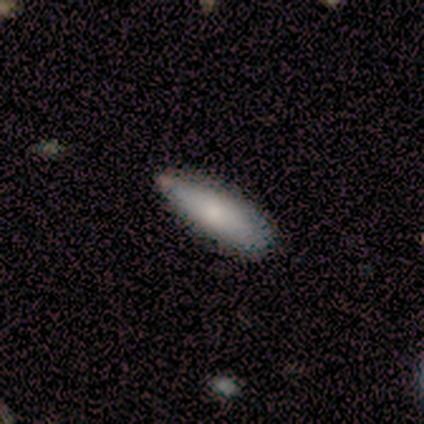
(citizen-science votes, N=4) Smooth or featured? 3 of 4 (75%) said smooth. How rounded? 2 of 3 (67%) said cigar-shaped. Merging? 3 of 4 (75%) said none.